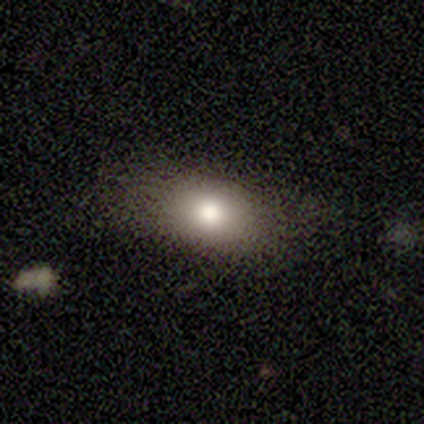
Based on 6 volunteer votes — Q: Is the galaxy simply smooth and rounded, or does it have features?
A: smooth — 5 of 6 (83%).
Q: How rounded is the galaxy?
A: in between — 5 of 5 (100%).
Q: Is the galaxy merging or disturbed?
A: none — 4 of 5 (80%).